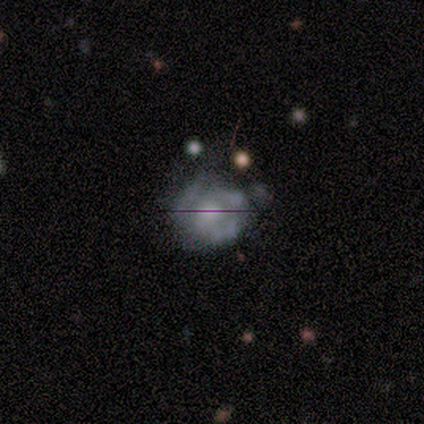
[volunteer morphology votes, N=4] Smooth or featured? featured or disk (75%)
Edge-on disk? no (100%)
Bar? no (100%)
Spiral arms? no (67%)
Bulge size? large (33%, tied with small and none)
Merging? none (100%)